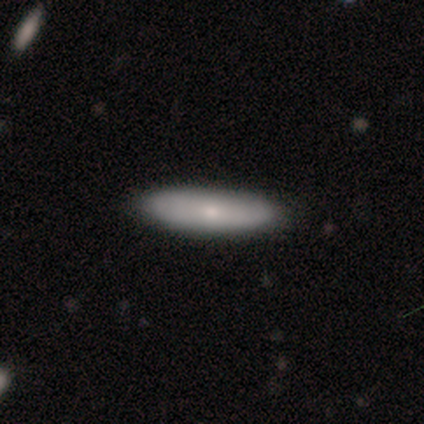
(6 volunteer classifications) Overall: smooth (83%). How rounded: cigar-shaped (80%). Merging: none (100%).